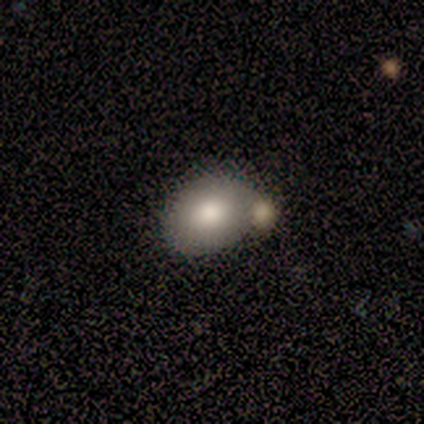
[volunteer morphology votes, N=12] Smooth or featured: smooth — 92% (star or artifact — 8%)
How rounded: in between — 73% (round — 27%)
Merging: none — 64% (merger — 27%)